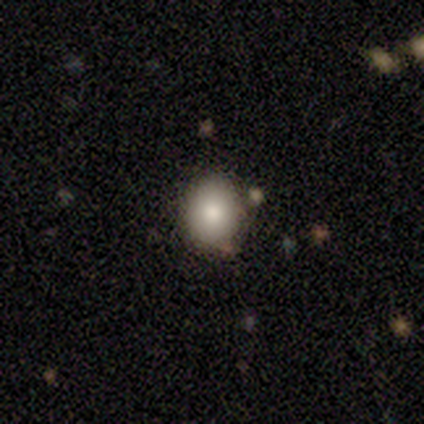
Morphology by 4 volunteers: Q: Smooth or featured?
A: smooth (75%); runner-up: featured or disk (25%)
Q: How rounded?
A: round (100%)
Q: Merging?
A: none (100%)